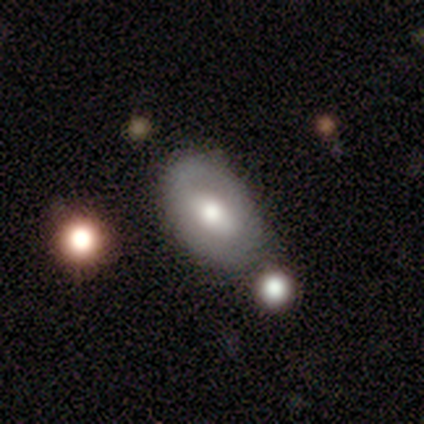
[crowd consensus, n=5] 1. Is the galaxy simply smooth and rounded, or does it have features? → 80% featured or disk, 20% smooth, 0% star or artifact.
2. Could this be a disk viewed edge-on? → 100% no, 0% yes.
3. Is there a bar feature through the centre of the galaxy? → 50% strong, 25% weak, 25% no.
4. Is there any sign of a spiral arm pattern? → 100% no, 0% yes.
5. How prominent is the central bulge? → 100% moderate, 0% dominant, 0% large, 0% small, 0% none.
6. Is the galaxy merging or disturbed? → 60% none, 20% minor disturbance, 20% merger, 0% major disturbance.